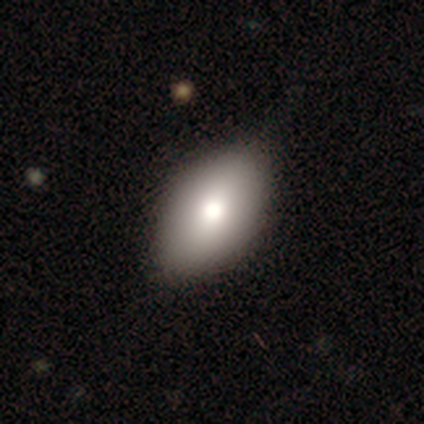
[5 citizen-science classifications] Smooth or featured?
  - smooth: 80% *
  - featured or disk: 20%
  - star or artifact: 0%
How rounded?
  - in between: 100% *
  - round: 0%
  - cigar-shaped: 0%
Merging?
  - none: 80% *
  - minor disturbance: 20%
  - major disturbance: 0%
  - merger: 0%